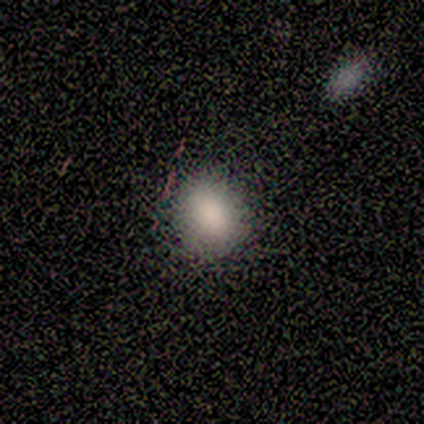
smooth_or_featured: smooth (p=0.80) [alt: star or artifact p=0.20]
how_rounded: round (p=0.50) [tied with: in between p=0.50]
merging: none (p=1.00)